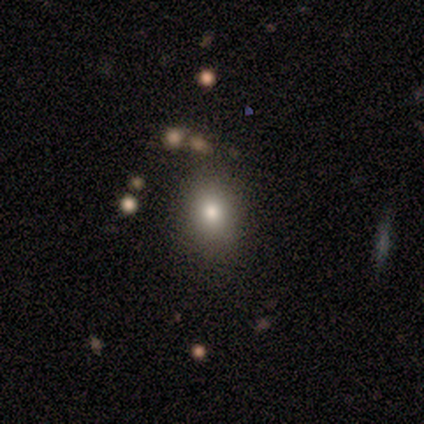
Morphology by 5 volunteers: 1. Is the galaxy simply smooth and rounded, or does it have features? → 100% smooth, 0% featured or disk, 0% star or artifact.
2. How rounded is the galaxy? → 60% in between, 40% round, 0% cigar-shaped.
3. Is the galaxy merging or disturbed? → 100% none, 0% minor disturbance, 0% major disturbance, 0% merger.